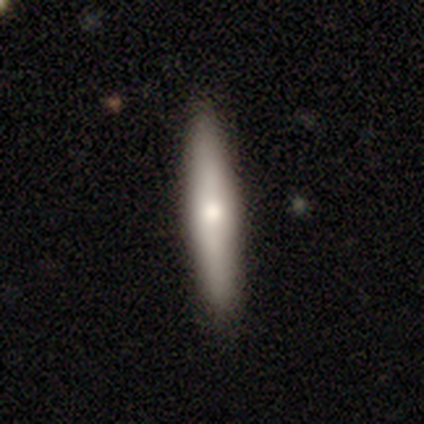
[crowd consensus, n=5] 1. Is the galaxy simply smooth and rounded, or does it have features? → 60% smooth, 40% featured or disk, 0% star or artifact.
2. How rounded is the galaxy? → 100% cigar-shaped, 0% round, 0% in between.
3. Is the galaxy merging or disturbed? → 100% none, 0% minor disturbance, 0% major disturbance, 0% merger.